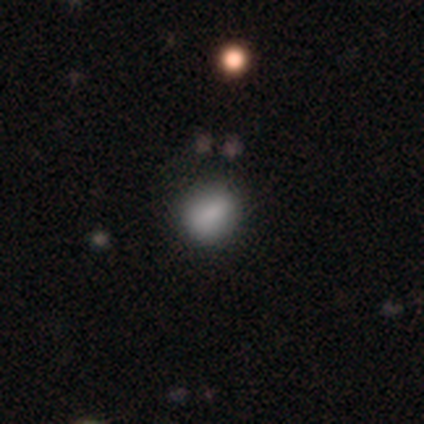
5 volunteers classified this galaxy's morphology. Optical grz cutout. It shows a smooth galaxy with no disk features (80%) that is round (50%, tied with in between). Merging: none (60%).